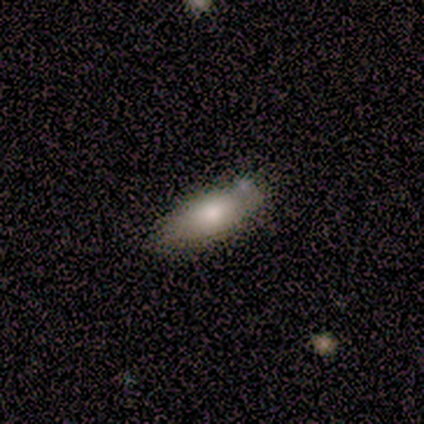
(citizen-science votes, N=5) Volunteers were most divided on "merging": minor disturbance: 50%, none: 25%, merger: 25%, major disturbance: 0%. More confident: how rounded — in between (100%); smooth or featured — smooth (60%).